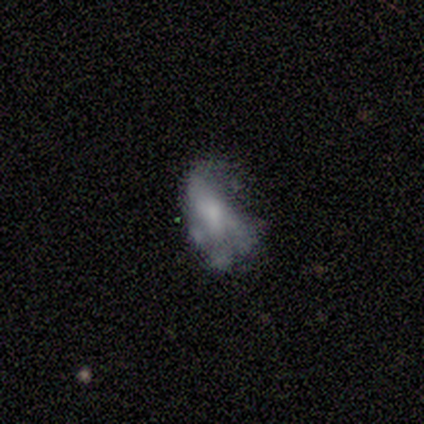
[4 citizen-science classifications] Morphology: type=smooth (50%, tied with featured or disk); roundness=in between (100%); merging=major disturbance (50%).